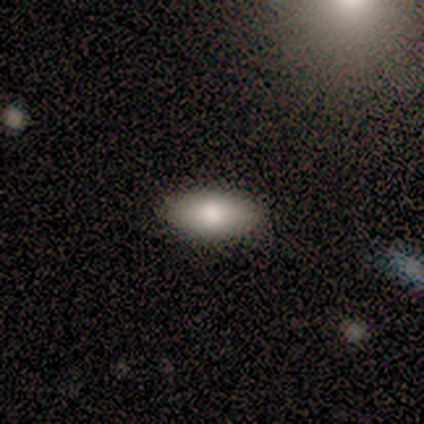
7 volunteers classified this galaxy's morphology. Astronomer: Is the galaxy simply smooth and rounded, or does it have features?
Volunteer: smooth — 86%.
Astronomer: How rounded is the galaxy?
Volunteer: in between — 100%.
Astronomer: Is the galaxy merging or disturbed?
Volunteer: none — 83%.